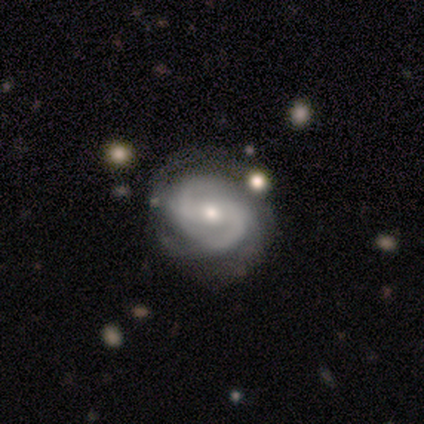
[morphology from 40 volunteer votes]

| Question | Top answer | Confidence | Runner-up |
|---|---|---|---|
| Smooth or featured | featured or disk | 88% | star or artifact (8%) |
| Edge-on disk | no | 97% | yes (3%) |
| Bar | strong | 47% | weak (29%) |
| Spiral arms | yes | 97% | no (3%) |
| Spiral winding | medium | 39% | tight (36%) |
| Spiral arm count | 2 | 61% | can't tell (21%) |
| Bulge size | moderate | 56% | small (41%) |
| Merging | none | 70% | minor disturbance (16%) |